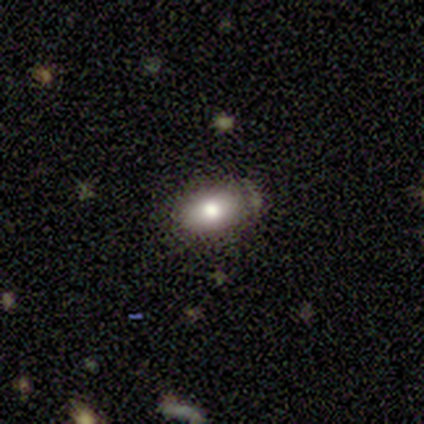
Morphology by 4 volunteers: smooth 50%, featured or disk 25%, star or artifact 25%. Down the decision tree: how rounded — in between (100%); merging — none (67%).